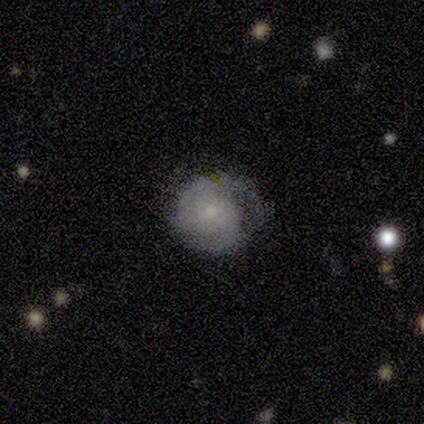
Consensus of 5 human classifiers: smooth-or-featured: featured or disk: 80% | smooth: 20% | star or artifact: 0%
  disk-edge-on: no: 100% | yes: 0%
    bar: no: 75% | weak: 25% | strong: 0%
    has-spiral-arms: yes: 100% | no: 0%
      spiral-winding: tight: 50% (tied) | medium: 50% (tied) | loose: 0%
      spiral-arm-count: 2: 50% | 3: 25% | can't tell: 25% | 1: 0% | 4: 0% | more than 4: 0%
    bulge-size: small: 75% | dominant: 25% | large: 0% | moderate: 0% | none: 0%
  merging: none: 40% (tied) | minor disturbance: 40% (tied) | major disturbance: 20% | merger: 0%